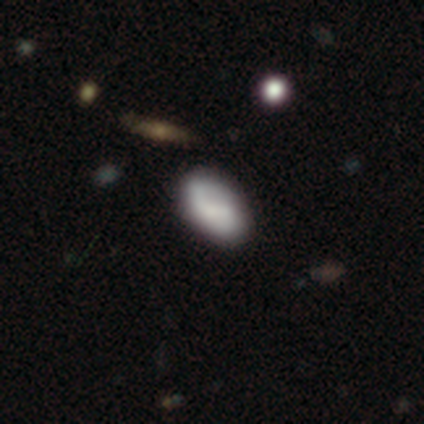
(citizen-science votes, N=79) Smooth or featured: smooth — 59% (featured or disk — 27%)
How rounded: in between — 96% (cigar-shaped — 4%)
Merging: none — 43% (minor disturbance — 7%)